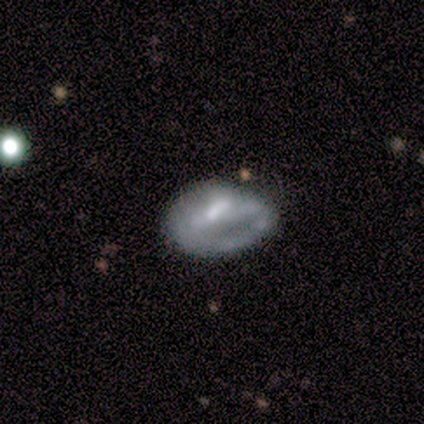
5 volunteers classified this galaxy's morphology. smooth-or-featured: smooth: 80% | featured or disk: 20% | star or artifact: 0%
  how-rounded: round: 50% (tied) | in between: 50% (tied) | cigar-shaped: 0%
  merging: none: 40% (tied) | minor disturbance: 40% (tied) | major disturbance: 20% | merger: 0%